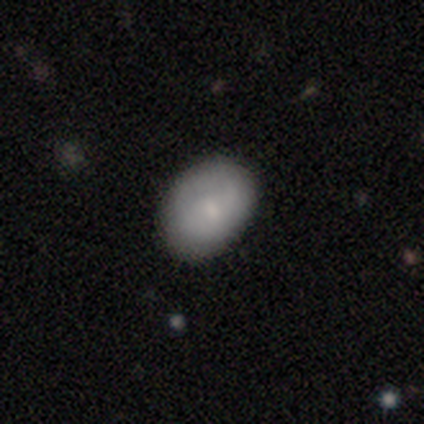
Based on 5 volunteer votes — A smooth galaxy with no disk features (80%) that is in between round and cigar-shaped (100%). Merging: none (60%).